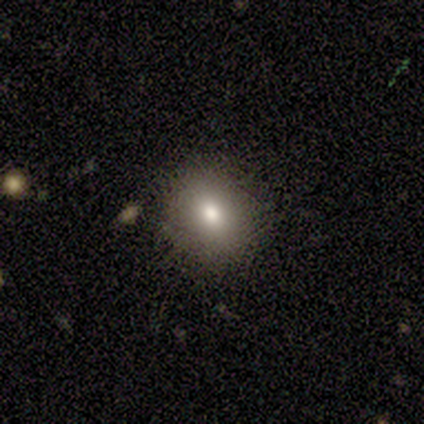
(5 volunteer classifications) Smooth or featured? 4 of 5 (80%) said smooth. How rounded? 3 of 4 (75%) said round. Merging? 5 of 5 (100%) said none.